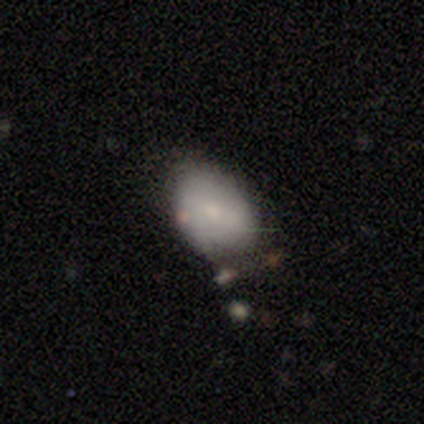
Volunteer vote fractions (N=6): Morphology: type=smooth (83%); roundness=in between (60%); merging=none (60%).